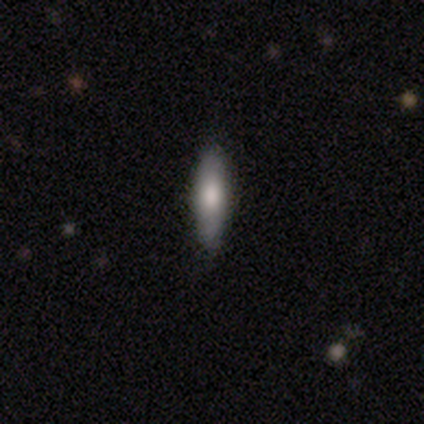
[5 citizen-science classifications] This appears to be a smooth galaxy with no disk features (80%) that is cigar-shaped (75%). Merging: none (100%).